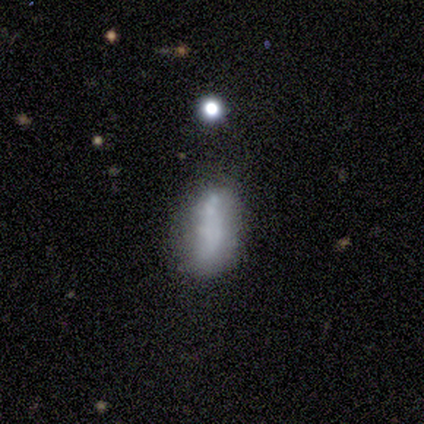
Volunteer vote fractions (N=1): A smooth galaxy with no disk features (100%) that is cigar-shaped (100%).

Vote fractions:
- Smooth or featured? smooth: 100% / featured or disk: 0% / star or artifact: 0%
- How rounded? cigar-shaped: 100% / round: 0% / in between: 0%
- Merging? none: 100% / minor disturbance: 0% / major disturbance: 0% / merger: 0%